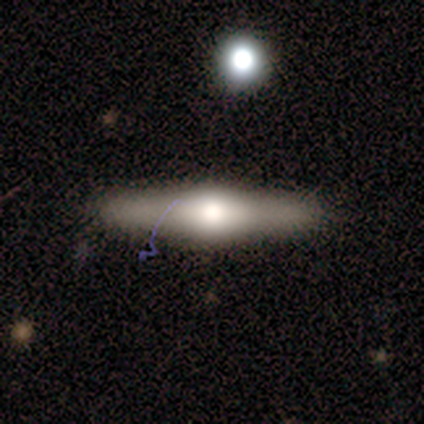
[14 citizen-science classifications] Smooth or featured: featured or disk — 93% (smooth — 7%)
Edge-on disk: yes — 100%
Edge-on bulge: rounded — 92% (boxy — 8%)
Merging: none — 86% (minor disturbance — 7%)